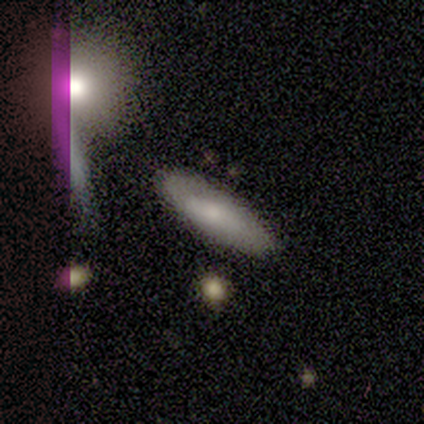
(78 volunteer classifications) Volunteers were most divided on "how rounded": in between: 62%, cigar-shaped: 38%, round: 0%. More confident: merging — none (81%); smooth or featured — smooth (62%).